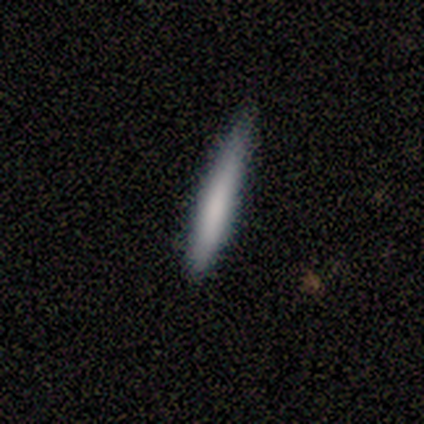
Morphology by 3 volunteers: A smooth galaxy with no disk features (67%) that is cigar-shaped (100%). Merging: none (100%).